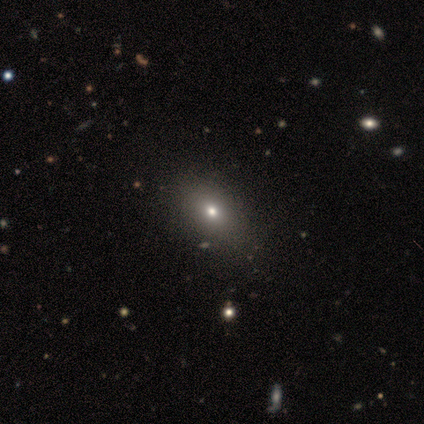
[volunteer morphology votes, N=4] smooth-or-featured: smooth: 50% | featured or disk: 25% | star or artifact: 25%
  how-rounded: in between: 100% | round: 0% | cigar-shaped: 0%
  merging: none: 100% | minor disturbance: 0% | major disturbance: 0% | merger: 0%